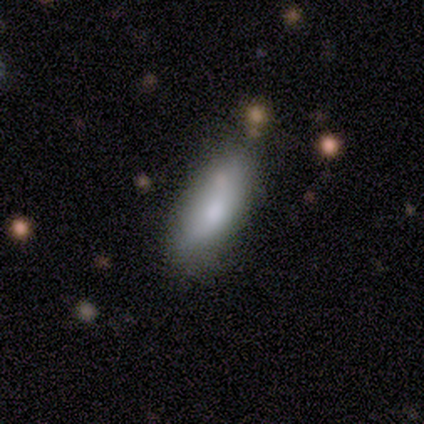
Smooth or featured? 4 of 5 (80%) said smooth. How rounded? 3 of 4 (75%) said in between. Merging? 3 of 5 (60%) said none.